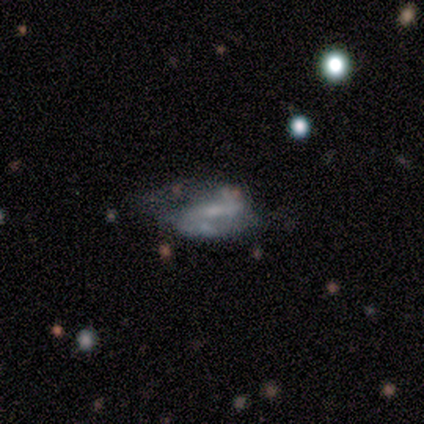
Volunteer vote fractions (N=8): Smooth or featured? 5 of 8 (62%) said featured or disk. Edge-on disk? 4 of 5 (80%) said no. Bar? 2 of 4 (50%) said strong. Spiral arms? 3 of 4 (75%) said yes. Spiral winding? 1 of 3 (33%, tied with medium and loose) said tight. Spiral arm count? 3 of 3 (100%) said 2. Bulge size? 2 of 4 (50%) said small. Merging? 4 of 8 (50%) said minor disturbance.